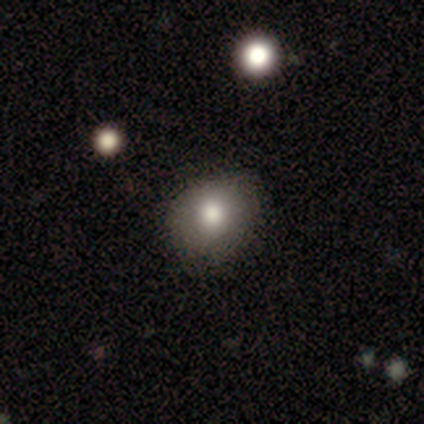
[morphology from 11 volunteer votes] smooth-or-featured: smooth: 91% | star or artifact: 9% | featured or disk: 0%
  how-rounded: in between: 70% | round: 30% | cigar-shaped: 0%
  merging: none: 80% | minor disturbance: 20% | major disturbance: 0% | merger: 0%